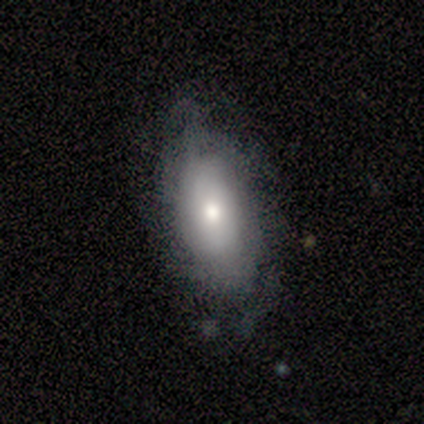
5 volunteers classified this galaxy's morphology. Smooth or featured?
  - smooth: 40% * (tied)
  - featured or disk: 40% * (tied)
  - star or artifact: 20%
How rounded?
  - in between: 100% *
  - round: 0%
  - cigar-shaped: 0%
Merging?
  - none: 100% *
  - minor disturbance: 0%
  - major disturbance: 0%
  - merger: 0%